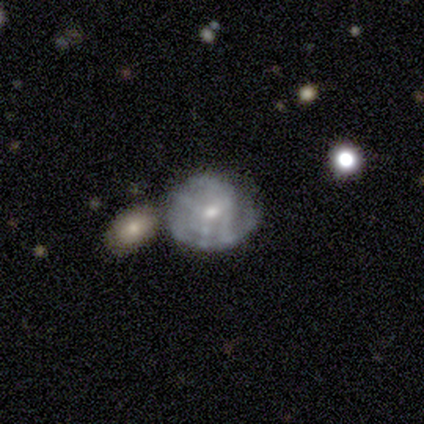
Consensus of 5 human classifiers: Overall: featured or disk (80%). Edge-on disk: no (100%). Bar: weak (50%, tied with no). Spiral arms: yes (50%, tied with no). Spiral arm count: 1 (50%, tied with 2). Spiral winding: tight (50%, tied with medium). Bulge size: small (75%). Merging: none (40%; minor disturbance 20%).